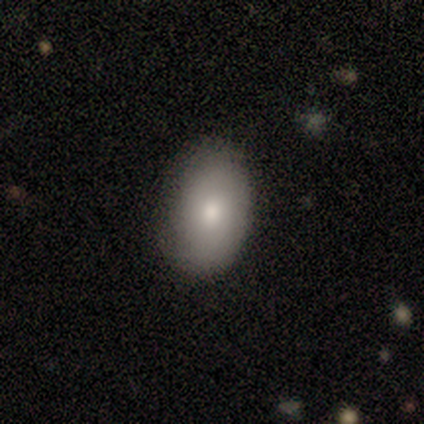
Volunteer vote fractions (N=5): Smooth or featured?
  - smooth: 80% *
  - featured or disk: 20%
  - star or artifact: 0%
How rounded?
  - in between: 100% *
  - round: 0%
  - cigar-shaped: 0%
Merging?
  - none: 60% *
  - minor disturbance: 20%
  - major disturbance: 20%
  - merger: 0%